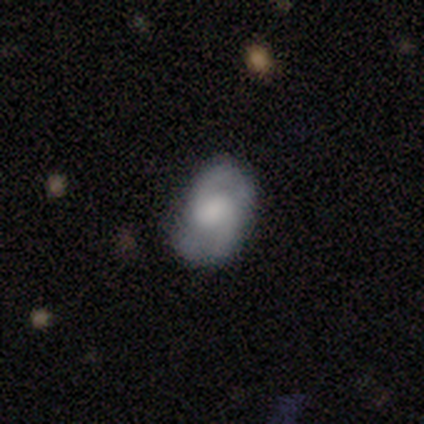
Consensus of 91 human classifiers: Q: Smooth or featured?
A: featured or disk (62%); runner-up: smooth (34%)
Q: Edge-on disk?
A: no (98%); runner-up: yes (2%)
Q: Bar?
A: weak (51%); runner-up: no (42%)
Q: Spiral arms?
A: yes (85%); runner-up: no (15%)
Q: Spiral winding?
A: medium (38%); runner-up: loose (34%)
Q: Spiral arm count?
A: 2 (91%); runner-up: 3 (4%)
Q: Bulge size?
A: moderate (36%); runner-up: small (27%)
Q: Merging?
A: none (79%); runner-up: minor disturbance (16%)